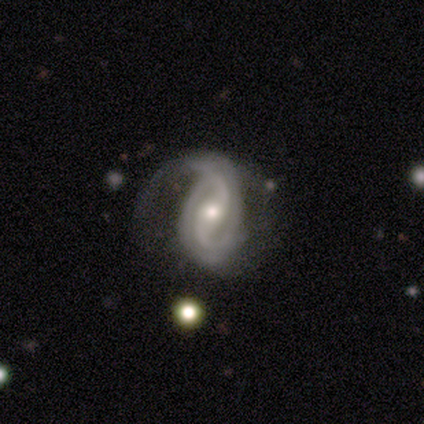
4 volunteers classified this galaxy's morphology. Smooth or featured?
  - featured or disk: 100% *
  - smooth: 0%
  - star or artifact: 0%
Edge-on disk?
  - no: 100% *
  - yes: 0%
Bar?
  - weak: 75% *
  - no: 25%
  - strong: 0%
Spiral arms?
  - yes: 100% *
  - no: 0%
Spiral winding?
  - tight: 50% * (tied)
  - medium: 50% * (tied)
  - loose: 0%
Spiral arm count?
  - 2: 100% *
  - 1: 0%
  - 3: 0%
  - 4: 0%
  - more than 4: 0%
  - can't tell: 0%
Bulge size?
  - moderate: 75% *
  - small: 25%
  - dominant: 0%
  - large: 0%
  - none: 0%
Merging?
  - none: 50% *
  - minor disturbance: 25%
  - major disturbance: 25%
  - merger: 0%